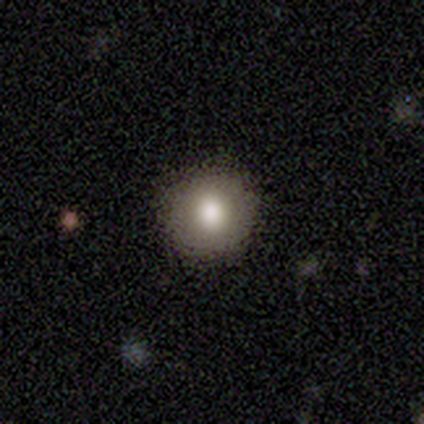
smooth_or_featured: smooth (p=0.80) [alt: featured or disk p=0.20]
how_rounded: round (p=1.00)
merging: none (p=1.00)